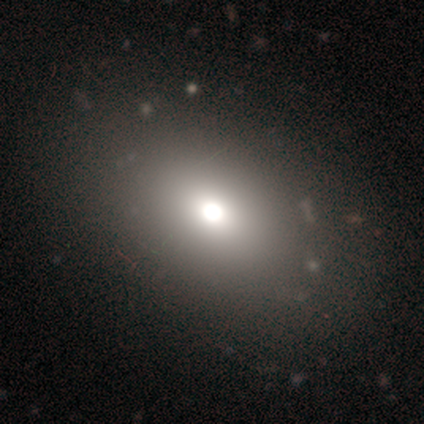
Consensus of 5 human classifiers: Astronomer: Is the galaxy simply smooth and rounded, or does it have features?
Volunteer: smooth — 80%.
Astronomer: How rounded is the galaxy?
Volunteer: in between — 75%.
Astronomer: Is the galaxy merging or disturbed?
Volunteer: none — 80%.